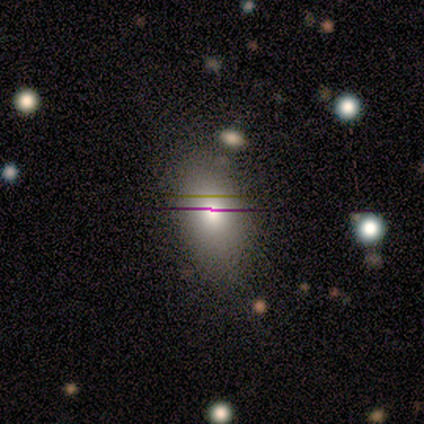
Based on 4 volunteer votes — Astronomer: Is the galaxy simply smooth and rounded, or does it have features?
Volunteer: smooth — 75%.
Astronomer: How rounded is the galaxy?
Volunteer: in between — 100%.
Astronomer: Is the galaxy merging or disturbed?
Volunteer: none — 75%.